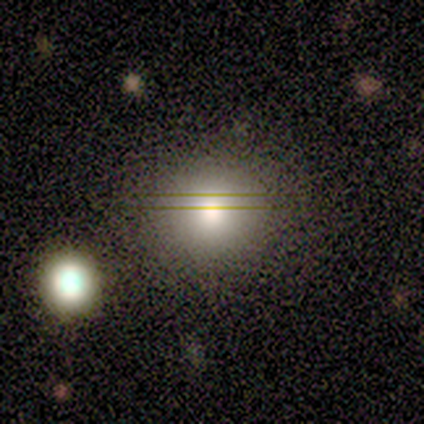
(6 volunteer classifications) Smooth or featured?
  - smooth: 100% *
  - featured or disk: 0%
  - star or artifact: 0%
How rounded?
  - round: 83% *
  - in between: 17%
  - cigar-shaped: 0%
Merging?
  - none: 100% *
  - minor disturbance: 0%
  - major disturbance: 0%
  - merger: 0%